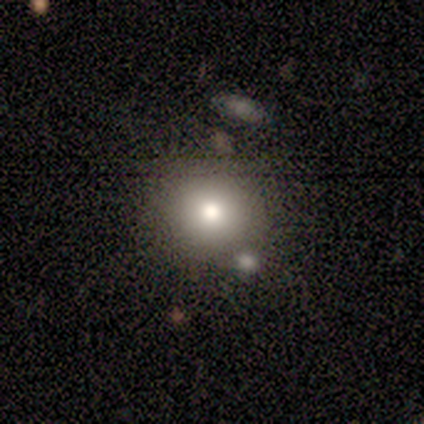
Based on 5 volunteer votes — Smooth or featured? smooth (100%)
How rounded? round (100%)
Merging? none (40%, tied with minor disturbance)